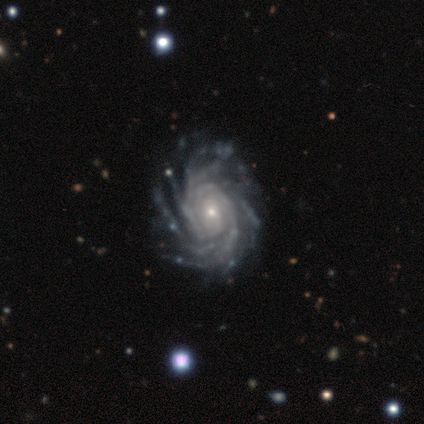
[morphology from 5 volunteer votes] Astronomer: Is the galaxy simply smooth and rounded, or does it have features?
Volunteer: featured or disk — 100%.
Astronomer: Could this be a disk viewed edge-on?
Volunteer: no — 100%.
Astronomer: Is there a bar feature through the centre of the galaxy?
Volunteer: no — 60% (runner-up: weak, 40%).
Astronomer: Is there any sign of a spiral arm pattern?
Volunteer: yes — 100%.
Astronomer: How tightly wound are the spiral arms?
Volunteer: tight — 60% (runner-up: medium, 40%).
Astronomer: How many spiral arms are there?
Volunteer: more than 4 — 60%.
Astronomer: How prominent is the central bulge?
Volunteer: small — 100%.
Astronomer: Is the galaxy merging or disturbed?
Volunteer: none — 60%.